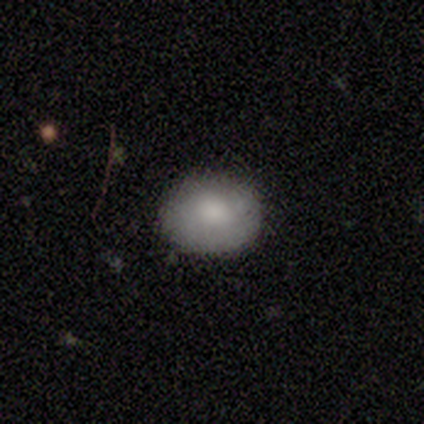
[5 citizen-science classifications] A smooth galaxy with no disk features (100%) that is in between round and cigar-shaped (60%). Merging: none (60%).